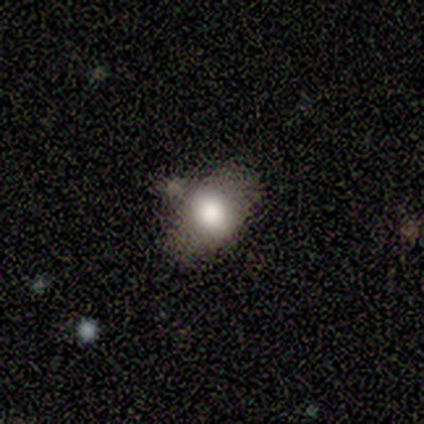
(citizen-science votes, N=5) Smooth or featured: smooth — 80% (featured or disk — 20%)
How rounded: in between — 100%
Merging: none — 40% (tied with minor disturbance — 40%)